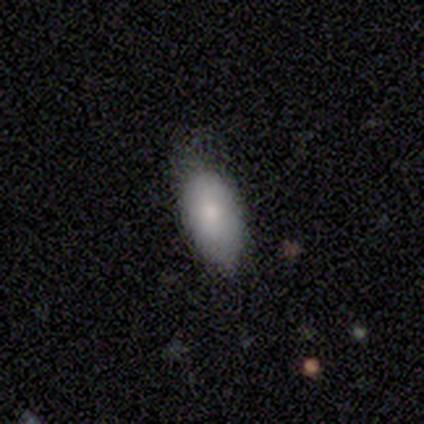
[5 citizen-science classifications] smooth-or-featured: smooth: 100% | featured or disk: 0% | star or artifact: 0%
  how-rounded: in between: 80% | cigar-shaped: 20% | round: 0%
  merging: none: 80% | major disturbance: 20% | minor disturbance: 0% | merger: 0%